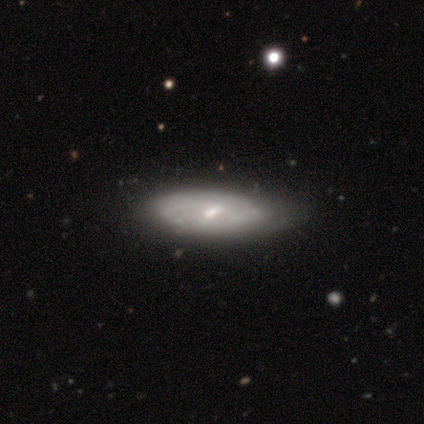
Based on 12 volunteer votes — Smooth or featured?
  - featured or disk: 75% *
  - smooth: 25%
  - star or artifact: 0%
Edge-on disk?
  - no: 100% *
  - yes: 0%
Bar?
  - weak: 78% *
  - no: 22%
  - strong: 0%
Spiral arms?
  - yes: 78% *
  - no: 22%
Spiral winding?
  - tight: 71% *
  - medium: 29%
  - loose: 0%
Spiral arm count?
  - can't tell: 86% *
  - 2: 14%
  - 1: 0%
  - 3: 0%
  - 4: 0%
  - more than 4: 0%
Bulge size?
  - small: 67% *
  - moderate: 22%
  - dominant: 11%
  - large: 0%
  - none: 0%
Merging?
  - none: 67% *
  - minor disturbance: 17%
  - major disturbance: 17%
  - merger: 0%